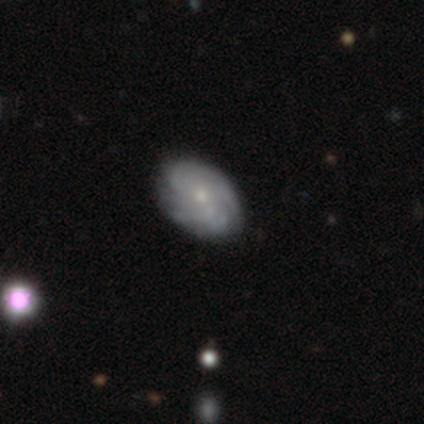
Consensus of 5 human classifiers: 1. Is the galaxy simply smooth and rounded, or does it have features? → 80% featured or disk, 20% star or artifact, 0% smooth.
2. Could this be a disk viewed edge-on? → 75% no, 25% yes.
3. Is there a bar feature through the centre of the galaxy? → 100% no, 0% strong, 0% weak.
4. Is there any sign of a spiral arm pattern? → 100% yes, 0% no.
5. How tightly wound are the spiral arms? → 67% tight, 33% medium, 0% loose.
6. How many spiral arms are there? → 33% 4 (tied), 33% more than 4 (tied), 33% can't tell (tied), 0% 1, 0% 2, 0% 3.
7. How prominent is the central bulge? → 67% moderate, 33% small, 0% dominant, 0% large, 0% none.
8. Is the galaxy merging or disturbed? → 100% none, 0% minor disturbance, 0% major disturbance, 0% merger.